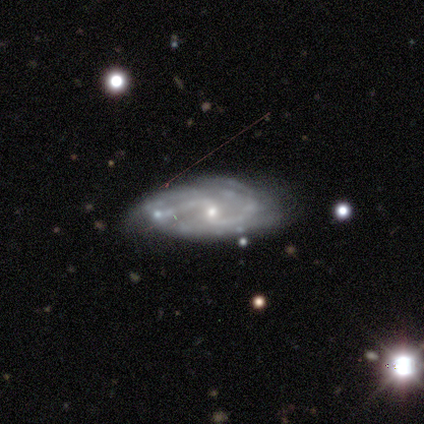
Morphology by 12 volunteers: This is clearly a featured or disk galaxy (92%). It is clearly not viewed edge-on (91%). Bar: likely weak (60%). Spiral arm pattern: clearly yes (90%). Spiral arm count: likely 2 (67%). Spiral winding: possibly medium (56%). Central bulge: likely small (70%). Merging: likely none (73%).